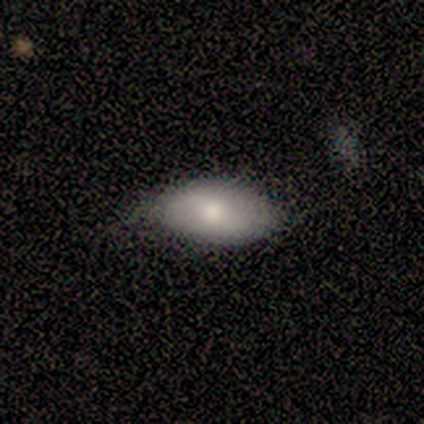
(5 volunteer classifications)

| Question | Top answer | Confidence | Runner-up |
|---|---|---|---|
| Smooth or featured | smooth | 60% | featured or disk (40%) |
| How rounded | in between | 67% | round (33%) |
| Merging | none | 80% | major disturbance (20%) |